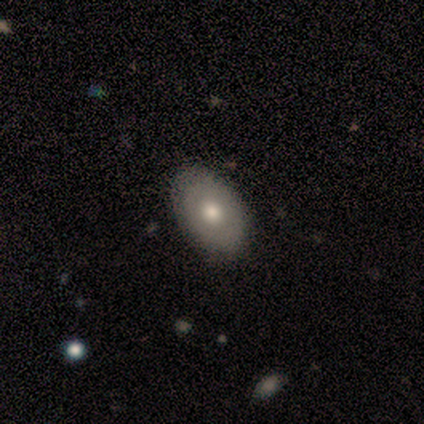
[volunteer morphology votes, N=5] type=smooth (80%); roundness=in between (75%); merging=none (60%).